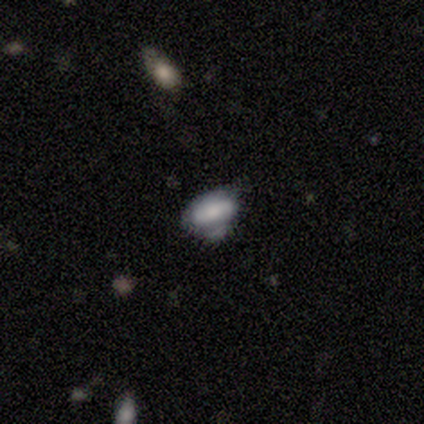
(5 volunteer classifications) smooth-or-featured: smooth: 60% | featured or disk: 40% | star or artifact: 0%
  how-rounded: in between: 100% | round: 0% | cigar-shaped: 0%
  merging: none: 60% | minor disturbance: 20% | merger: 20% | major disturbance: 0%